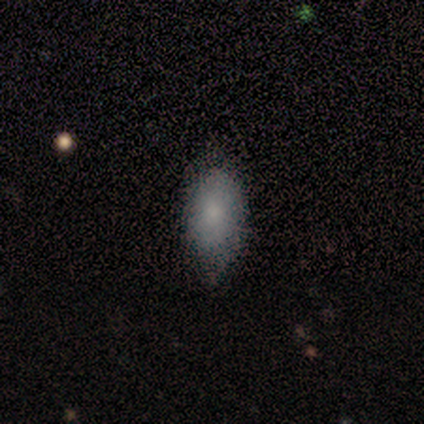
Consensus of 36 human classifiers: This appears to be a smooth galaxy with no disk features (86%) that is in between round and cigar-shaped (94%). Merging: none (55%).